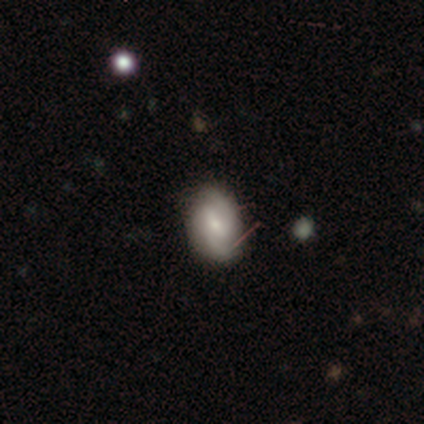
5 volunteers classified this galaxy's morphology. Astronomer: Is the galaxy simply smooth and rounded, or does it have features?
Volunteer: featured or disk — 60% (runner-up: smooth, 40%).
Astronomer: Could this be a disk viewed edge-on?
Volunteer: no — 100%.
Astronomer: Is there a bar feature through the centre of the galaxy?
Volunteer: weak — 100%.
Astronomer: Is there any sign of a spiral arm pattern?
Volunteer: yes — 100%.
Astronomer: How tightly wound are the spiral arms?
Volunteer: medium — 67%.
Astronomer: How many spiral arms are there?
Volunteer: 2 — 100%.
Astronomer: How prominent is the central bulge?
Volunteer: moderate — 67%.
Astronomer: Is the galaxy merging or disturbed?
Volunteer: none — 100%.